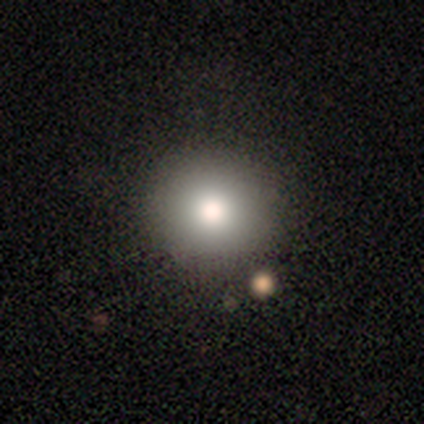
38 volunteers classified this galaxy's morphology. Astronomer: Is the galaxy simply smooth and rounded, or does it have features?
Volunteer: smooth — 84%.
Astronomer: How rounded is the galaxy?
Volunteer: round — 100%.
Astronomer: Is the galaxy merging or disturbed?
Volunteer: none — 85%.